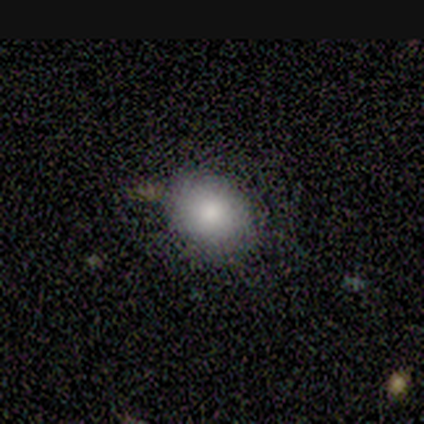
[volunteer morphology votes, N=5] Volunteers were most divided on "smooth or featured": smooth: 60%, featured or disk: 20%, star or artifact: 20%. More confident: how rounded — in between (100%); merging — none (100%).